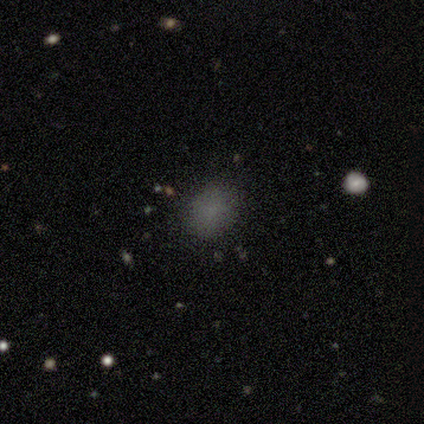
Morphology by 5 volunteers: Smooth or featured?
  - smooth: 100% *
  - featured or disk: 0%
  - star or artifact: 0%
How rounded?
  - round: 80% *
  - in between: 20%
  - cigar-shaped: 0%
Merging?
  - none: 60% *
  - minor disturbance: 40%
  - major disturbance: 0%
  - merger: 0%